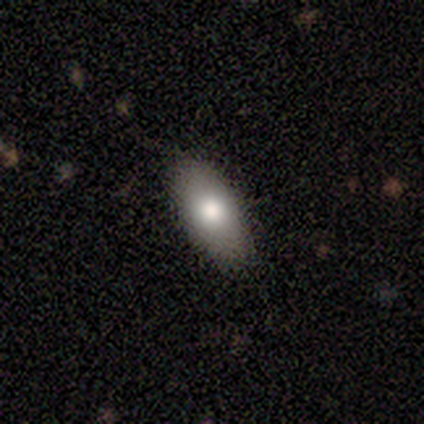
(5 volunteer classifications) Smooth or featured: smooth — 60% (featured or disk — 20%)
How rounded: in between — 100%
Merging: none — 100%